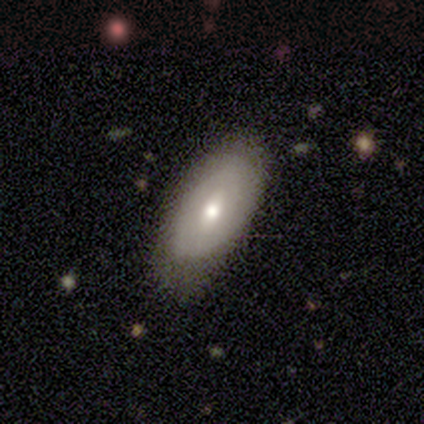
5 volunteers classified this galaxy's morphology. This appears to be a featured or disk galaxy (60%) with no bar (67%), no spiral arms (67%) and a moderate central bulge (67%). Merging: none (80%).